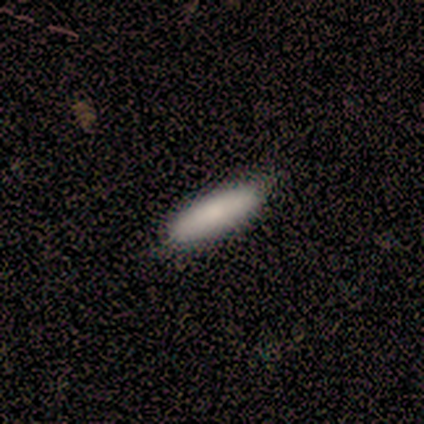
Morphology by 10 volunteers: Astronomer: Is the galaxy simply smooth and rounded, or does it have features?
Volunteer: smooth — 80%.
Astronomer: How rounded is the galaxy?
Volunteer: in between — 50%, tied with cigar-shaped at 50%.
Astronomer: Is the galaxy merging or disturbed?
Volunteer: none — 100%.